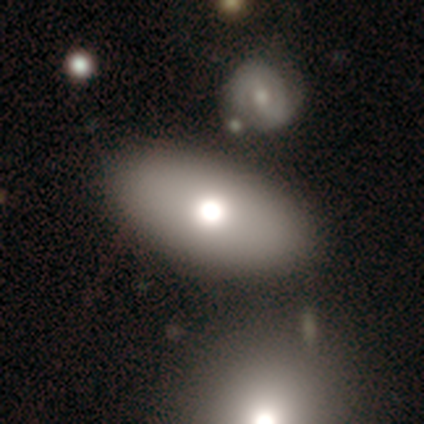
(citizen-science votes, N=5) A smooth galaxy with no disk features (100%) that is in between round and cigar-shaped (100%).

Vote fractions:
- Smooth or featured? smooth: 100% / featured or disk: 0% / star or artifact: 0%
- How rounded? in between: 100% / round: 0% / cigar-shaped: 0%
- Merging? none: 60% / minor disturbance: 40% / major disturbance: 0% / merger: 0%